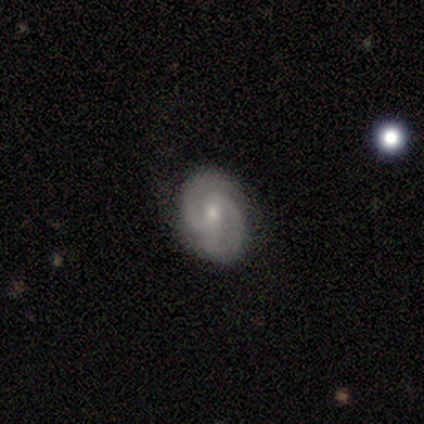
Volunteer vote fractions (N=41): smooth_or_featured: featured or disk (p=0.78) [alt: smooth p=0.17]
disk_edge_on: no (p=1.00)
bar: weak (p=0.50) [tied with: no p=0.50]
has_spiral_arms: yes (p=1.00)
spiral_winding: medium (p=0.56) [alt: tight p=0.38]
spiral_arm_count: 2 (p=0.84) [alt: 3 p=0.09]
bulge_size: small (p=0.56) [alt: moderate p=0.44]
merging: none (p=0.92) [alt: major disturbance p=0.05]